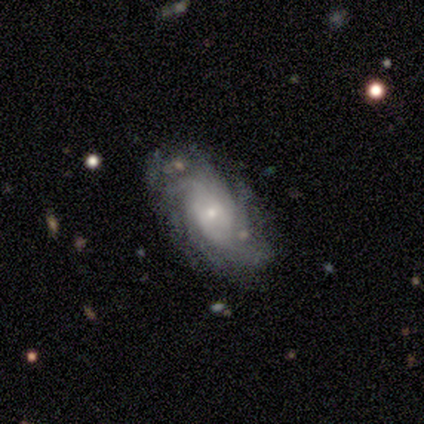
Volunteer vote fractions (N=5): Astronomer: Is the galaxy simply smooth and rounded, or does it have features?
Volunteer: featured or disk — 60% (runner-up: smooth, 40%).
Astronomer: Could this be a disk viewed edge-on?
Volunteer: no — 100%.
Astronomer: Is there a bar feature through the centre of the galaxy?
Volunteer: no — 67%.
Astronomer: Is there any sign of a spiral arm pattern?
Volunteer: yes — 100%.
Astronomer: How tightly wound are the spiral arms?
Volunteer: tight — 100%.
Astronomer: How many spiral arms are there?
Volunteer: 4 — 33%, tied with more than 4 and can't tell at 33%.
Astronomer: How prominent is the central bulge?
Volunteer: small — 100%.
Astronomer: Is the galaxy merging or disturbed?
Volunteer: none — 100%.